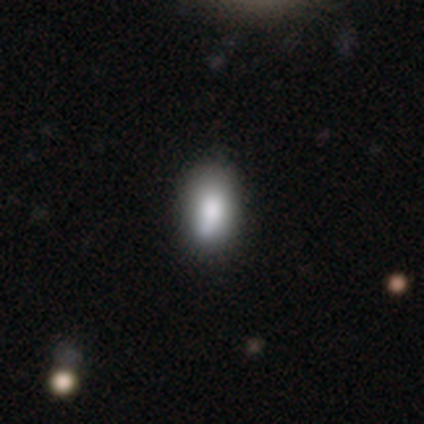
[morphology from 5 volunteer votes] Smooth or featured: smooth — 100%
How rounded: in between — 100%
Merging: none — 60% (minor disturbance — 40%)